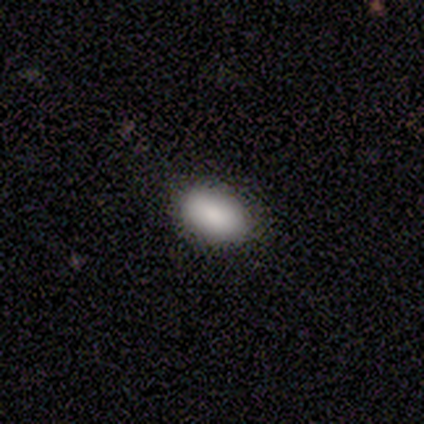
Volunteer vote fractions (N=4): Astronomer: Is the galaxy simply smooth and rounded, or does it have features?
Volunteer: smooth — 100%.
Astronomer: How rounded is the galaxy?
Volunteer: in between — 100%.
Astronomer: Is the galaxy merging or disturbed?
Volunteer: none — 100%.